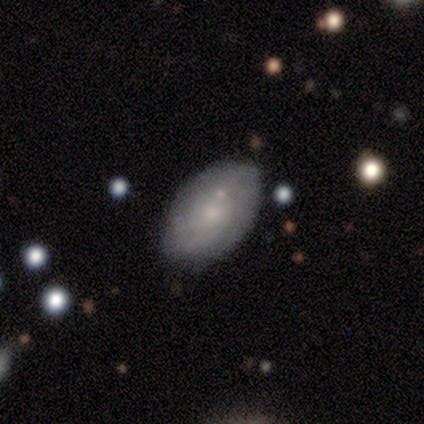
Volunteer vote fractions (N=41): Morphology: type=featured or disk (54%); edge-on=no (100%); bar=no (86%); spiral arms=yes (73%); winding=tight (44%); arm count=can't tell (44%); bulge=small (73%); merging=none (70%).